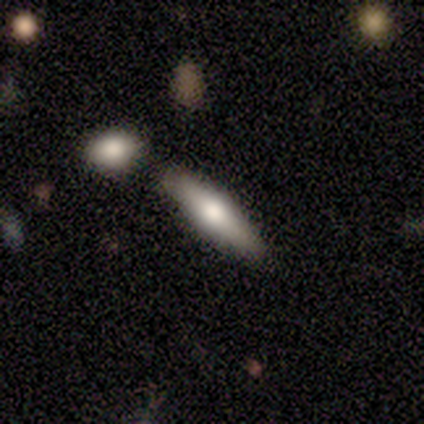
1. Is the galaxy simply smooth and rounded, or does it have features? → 60% smooth, 40% featured or disk, 0% star or artifact.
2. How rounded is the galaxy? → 67% cigar-shaped, 33% in between, 0% round.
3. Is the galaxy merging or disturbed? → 80% none, 20% minor disturbance, 0% major disturbance, 0% merger.